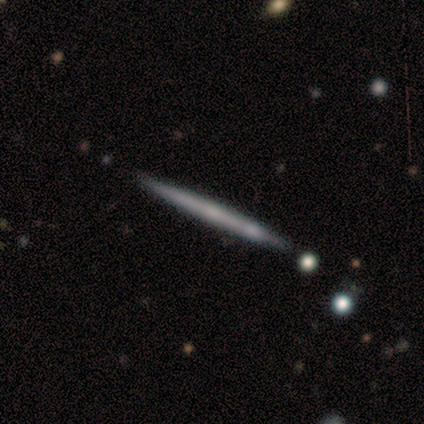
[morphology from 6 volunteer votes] Volunteers were most divided on "edge-on bulge" (2-way tie): none: 50%, rounded: 50%, boxy: 0%. More confident: edge-on disk — yes (100%); smooth or featured — featured or disk (67%); merging — none (67%).